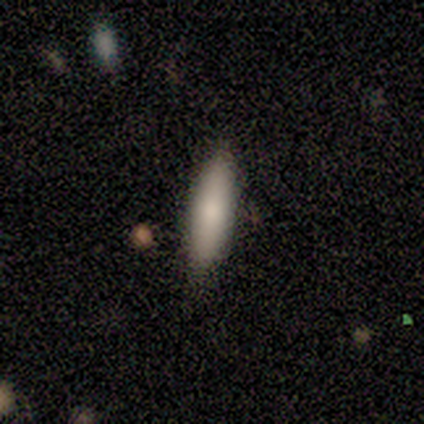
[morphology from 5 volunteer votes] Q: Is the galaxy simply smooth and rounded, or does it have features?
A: smooth — 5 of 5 (100%).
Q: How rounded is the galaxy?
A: cigar-shaped — 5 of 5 (100%).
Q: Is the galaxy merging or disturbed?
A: none — 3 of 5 (60%).